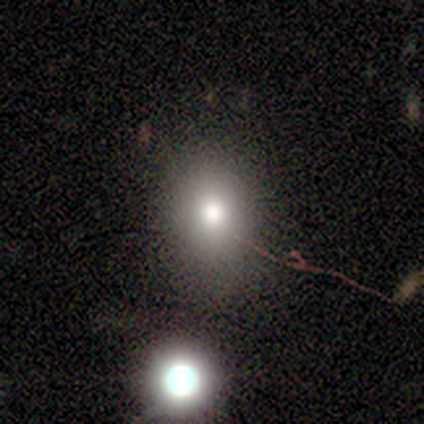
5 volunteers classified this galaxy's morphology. A smooth galaxy with no disk features (60%) that is in between round and cigar-shaped (67%).

Vote fractions:
- Smooth or featured? smooth: 60% / star or artifact: 40% / featured or disk: 0%
- How rounded? in between: 67% / round: 33% / cigar-shaped: 0%
- Merging? none: 100% / minor disturbance: 0% / major disturbance: 0% / merger: 0%